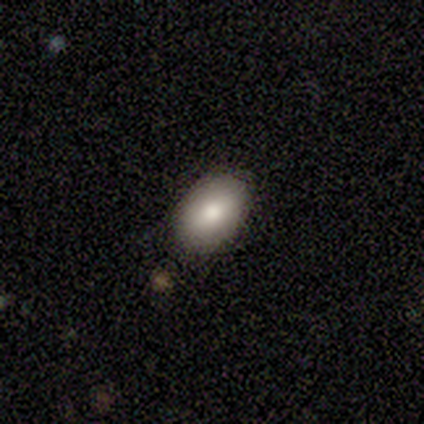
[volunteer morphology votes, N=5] Smooth or featured: smooth — 80% (featured or disk — 20%)
How rounded: in between — 100%
Merging: none — 100%